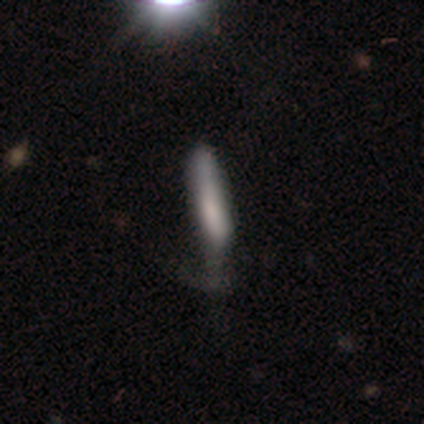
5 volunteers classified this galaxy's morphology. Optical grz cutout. It shows a smooth galaxy with no disk features (100%) that is cigar-shaped (60%). Merging: none (40%, tied with major disturbance).